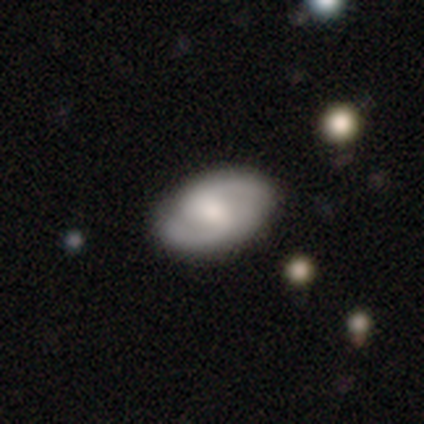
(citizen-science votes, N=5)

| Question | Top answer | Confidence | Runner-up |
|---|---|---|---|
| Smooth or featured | featured or disk | 60% | smooth (20%) |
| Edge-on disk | no | 100% | — |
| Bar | weak | 67% | no (33%) |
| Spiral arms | yes | 100% | — |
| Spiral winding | tight | 33% | tied: medium (33%), loose (33%) |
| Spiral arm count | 2 | 67% | 1 (33%) |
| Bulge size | large | 33% | tied: moderate (33%), small (33%) |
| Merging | none | 50% | major disturbance (25%) |